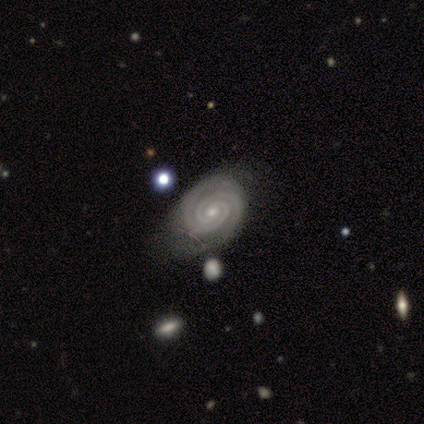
Smooth or featured? featured or disk (95%)
Edge-on disk? no (100%)
Bar? no (76%)
Spiral arms? yes (100%)
Spiral winding? tight (100%)
Spiral arm count? 2 (92%)
Bulge size? small (71%)
Merging? none (50%)